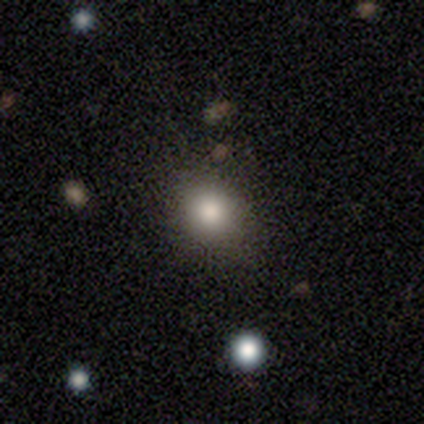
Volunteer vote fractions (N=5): smooth-or-featured: smooth: 60% | featured or disk: 20% | star or artifact: 20%
  how-rounded: round: 67% | in between: 33% | cigar-shaped: 0%
  merging: none: 75% | minor disturbance: 25% | major disturbance: 0% | merger: 0%